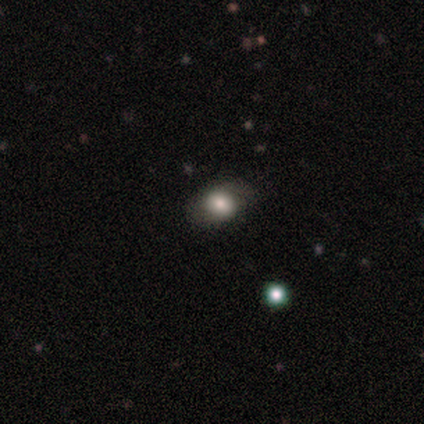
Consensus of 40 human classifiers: This appears to be a smooth galaxy with no disk features (65%) that is round (54%). Merging: none (74%).